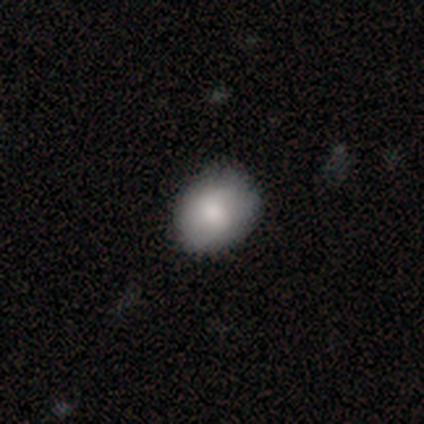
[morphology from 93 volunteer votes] Smooth or featured: smooth — 82% (featured or disk — 14%)
How rounded: round — 50% (tied with in between — 50%)
Merging: none — 78% (minor disturbance — 20%)